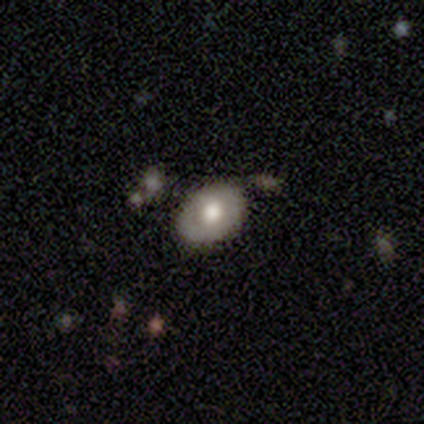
Smooth or featured? 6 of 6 (100%) said smooth. How rounded? 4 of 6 (67%) said in between. Merging? 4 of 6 (67%) said minor disturbance.